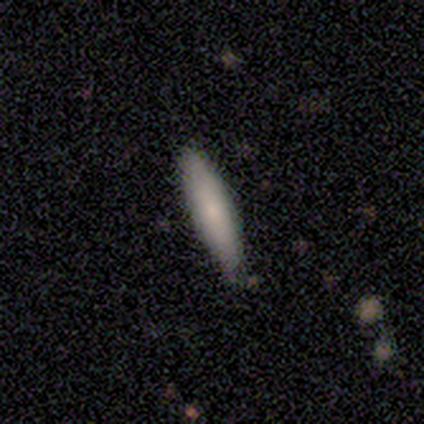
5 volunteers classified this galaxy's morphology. Overall: smooth (60%; featured or disk 20%). How rounded: cigar-shaped (100%). Merging: none (75%).